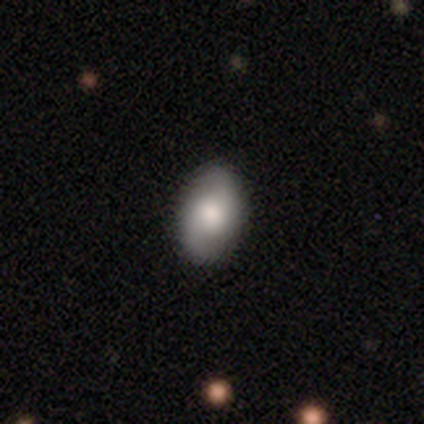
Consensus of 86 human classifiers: This appears to be a smooth galaxy with no disk features (59%) that is in between round and cigar-shaped (94%). Merging: none (89%).